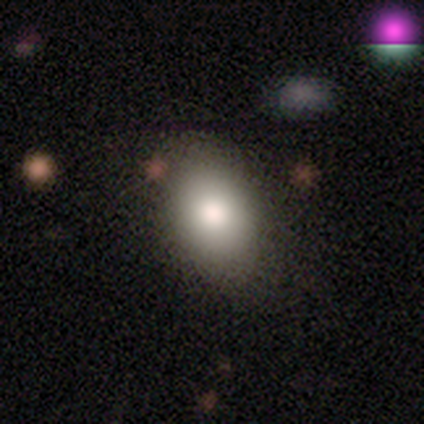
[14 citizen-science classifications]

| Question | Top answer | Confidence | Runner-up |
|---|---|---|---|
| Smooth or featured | smooth | 79% | featured or disk (21%) |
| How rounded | in between | 100% | — |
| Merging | none | 86% | minor disturbance (14%) |